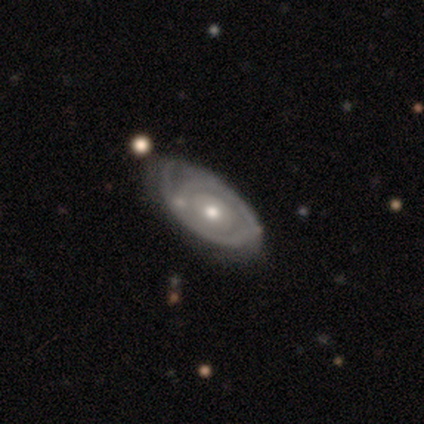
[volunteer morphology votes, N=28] featured or disk 64%, smooth 18%, star or artifact 18%. Down the decision tree: edge-on disk — no (100%); bar — no (94%); spiral arms — no (67%); bulge size — moderate (72%); merging — none (52%).